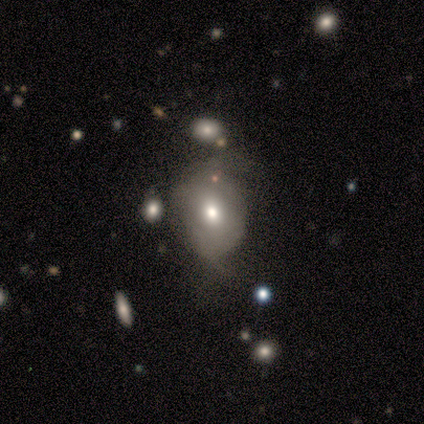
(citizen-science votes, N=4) smooth 50%, featured or disk 25%, star or artifact 25%. Down the decision tree: how rounded — round (50%, tied with in between); merging — none (67%).